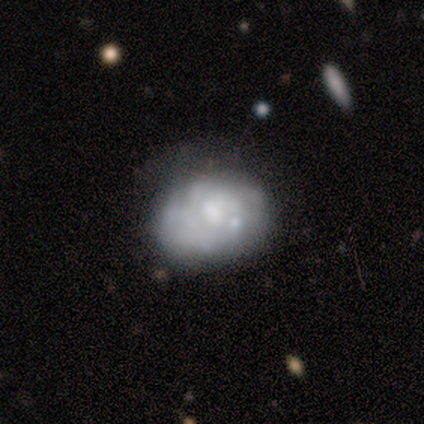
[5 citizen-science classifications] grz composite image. It shows a smooth galaxy with no disk features (40%, tied with featured or disk) that is in between round and cigar-shaped (100%). Merging: none (75%).